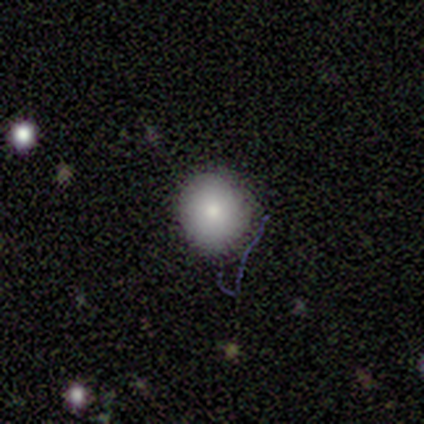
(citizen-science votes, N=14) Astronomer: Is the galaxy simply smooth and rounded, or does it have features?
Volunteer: smooth — 93%.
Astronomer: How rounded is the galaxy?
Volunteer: round — 77%.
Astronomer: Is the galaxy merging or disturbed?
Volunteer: none — 79%.